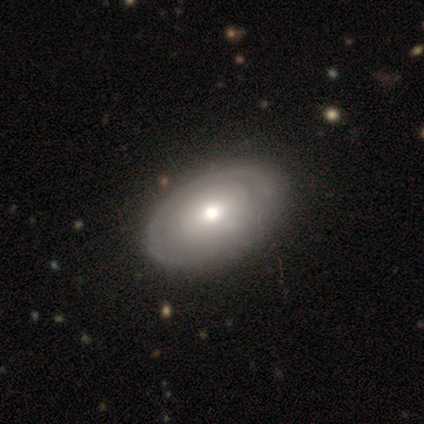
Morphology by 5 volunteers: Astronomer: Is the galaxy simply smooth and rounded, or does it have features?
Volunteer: featured or disk — 40%, tied with star or artifact at 40%.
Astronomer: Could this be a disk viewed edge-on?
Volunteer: no — 100%.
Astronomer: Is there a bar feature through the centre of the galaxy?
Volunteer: no — 100%.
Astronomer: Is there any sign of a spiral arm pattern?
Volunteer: no — 100%.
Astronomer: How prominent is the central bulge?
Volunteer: large — 50%, tied with moderate at 50%.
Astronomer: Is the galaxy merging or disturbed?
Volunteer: none — 67%.